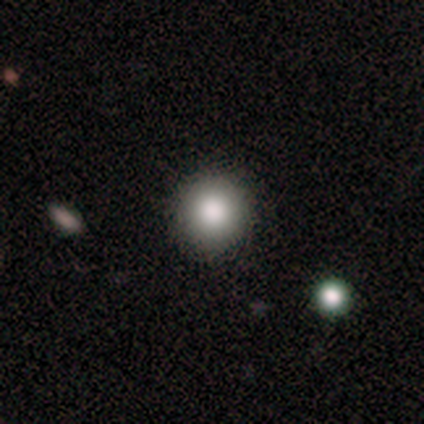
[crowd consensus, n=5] This is clearly a smooth galaxy (80%). How rounded: clearly round (100%). Merging: clearly none (100%).